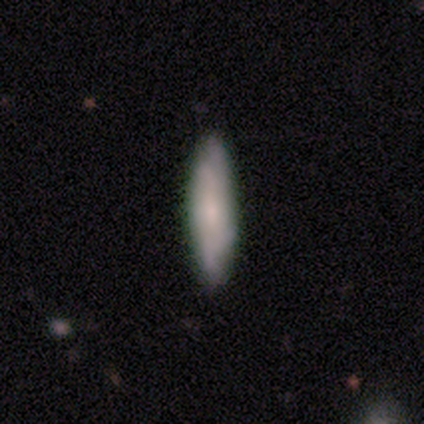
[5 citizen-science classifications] smooth_or_featured: smooth (p=0.60) [alt: featured or disk p=0.40]
how_rounded: cigar-shaped (p=1.00)
merging: none (p=1.00)